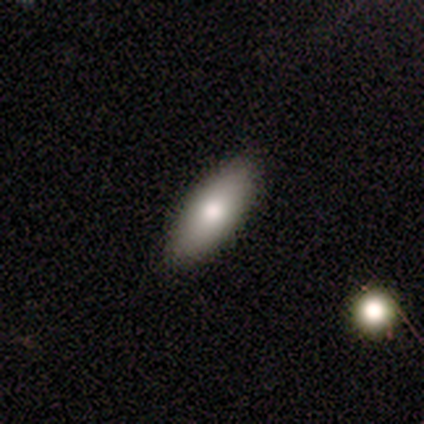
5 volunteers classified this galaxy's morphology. A smooth galaxy with no disk features (80%) that is in between round and cigar-shaped (75%).

Vote fractions:
- Smooth or featured? smooth: 80% / featured or disk: 20% / star or artifact: 0%
- How rounded? in between: 75% / cigar-shaped: 25% / round: 0%
- Merging? none: 100% / minor disturbance: 0% / major disturbance: 0% / merger: 0%